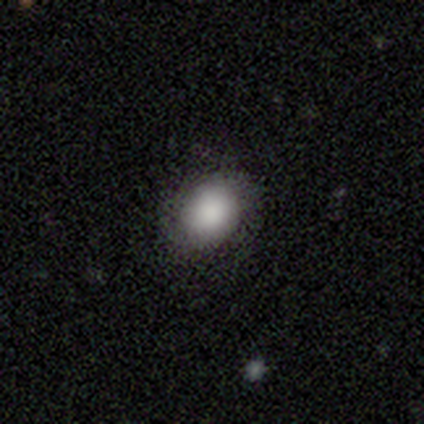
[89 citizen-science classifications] smooth 85%, star or artifact 9%, featured or disk 6%. Down the decision tree: how rounded — in between (54%); merging — none (84%).